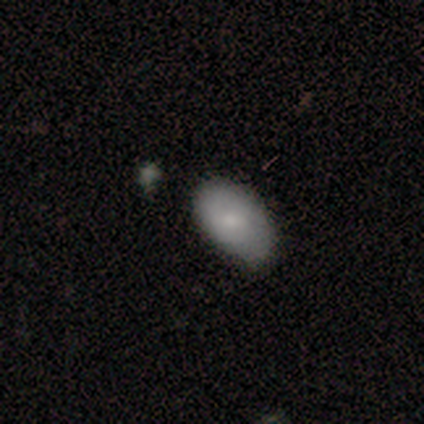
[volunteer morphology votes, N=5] A smooth galaxy with no disk features (80%) that is in between round and cigar-shaped (100%). Merging: none (50%, tied with minor disturbance).